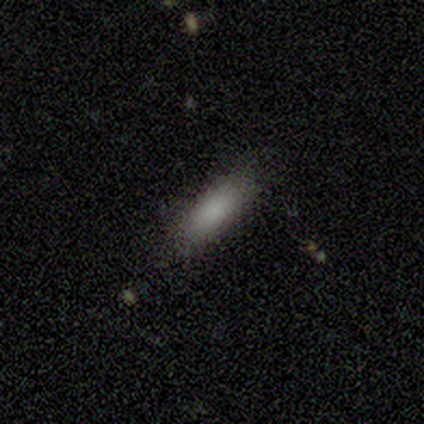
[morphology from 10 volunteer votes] Smooth or featured? smooth (100%)
How rounded? in between (50%, tied with cigar-shaped)
Merging? none (100%)